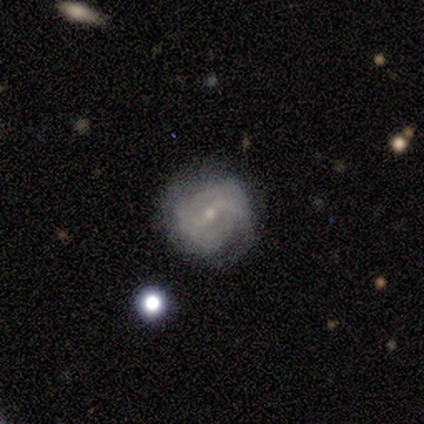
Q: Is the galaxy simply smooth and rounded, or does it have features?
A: featured or disk — 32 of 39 (82%).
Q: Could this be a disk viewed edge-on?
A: no — 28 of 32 (88%).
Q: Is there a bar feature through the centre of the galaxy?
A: no — 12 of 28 (43%).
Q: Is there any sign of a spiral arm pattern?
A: yes — 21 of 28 (75%).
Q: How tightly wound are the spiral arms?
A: tight — 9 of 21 (43%).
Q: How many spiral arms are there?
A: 2 — 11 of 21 (52%).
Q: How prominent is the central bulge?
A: small — 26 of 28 (93%).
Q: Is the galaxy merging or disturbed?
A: none — 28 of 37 (76%).